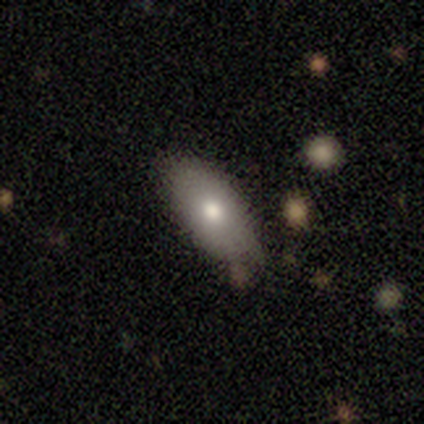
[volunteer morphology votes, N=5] smooth 80%, featured or disk 20%, star or artifact 0%. Down the decision tree: how rounded — in between (100%); merging — none (60%).